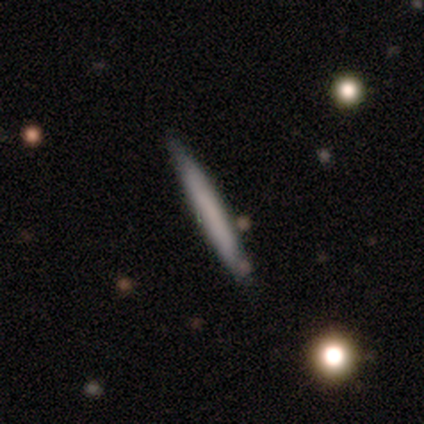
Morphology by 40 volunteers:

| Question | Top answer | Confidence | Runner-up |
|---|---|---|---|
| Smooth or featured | smooth | 68% | featured or disk (32%) |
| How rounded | cigar-shaped | 96% | in between (4%) |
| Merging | none | 88% | minor disturbance (8%) |